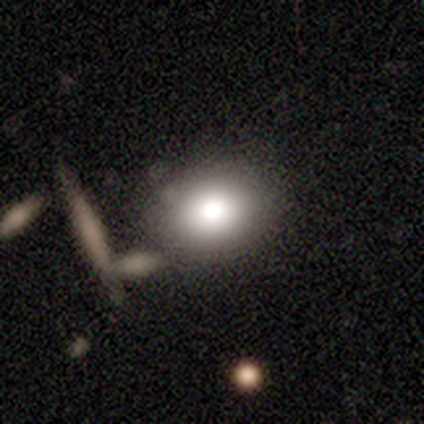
Smooth or featured? smooth (80%)
How rounded? round (75%)
Merging? none (80%)